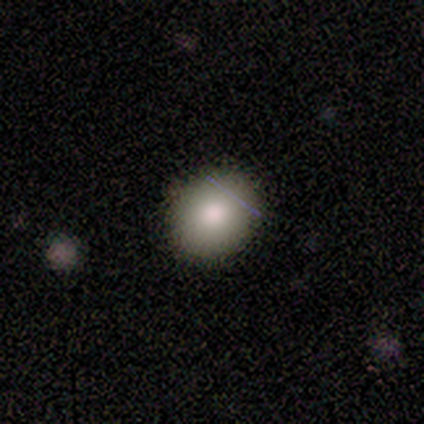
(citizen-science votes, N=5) Smooth or featured: smooth — 80% (featured or disk — 20%)
How rounded: round — 75% (in between — 25%)
Merging: none — 100%